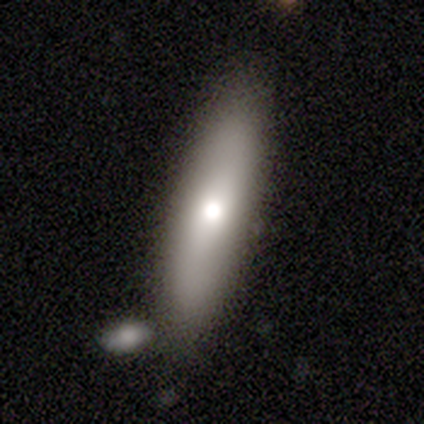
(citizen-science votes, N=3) Overall: smooth (67%; star or artifact 33%). How rounded: in between (100%). Merging: none (50%, tied with merger).